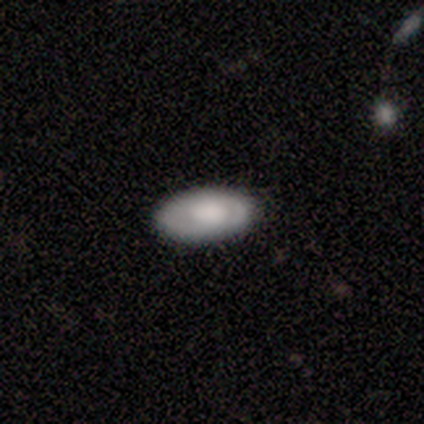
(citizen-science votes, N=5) smooth 60%, featured or disk 40%, star or artifact 0%. Down the decision tree: how rounded — in between (100%); merging — none (100%).